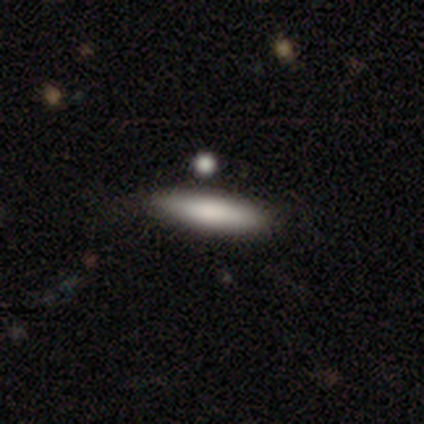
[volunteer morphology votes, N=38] smooth-or-featured: smooth: 82% | featured or disk: 13% | star or artifact: 5%
  how-rounded: cigar-shaped: 74% | in between: 26% | round: 0%
  merging: none: 75% | minor disturbance: 14% | merger: 11% | major disturbance: 0%